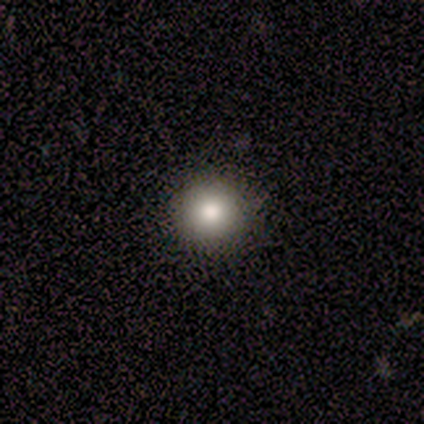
smooth 100%, featured or disk 0%, star or artifact 0%. Down the decision tree: how rounded — round (100%); merging — none (100%).